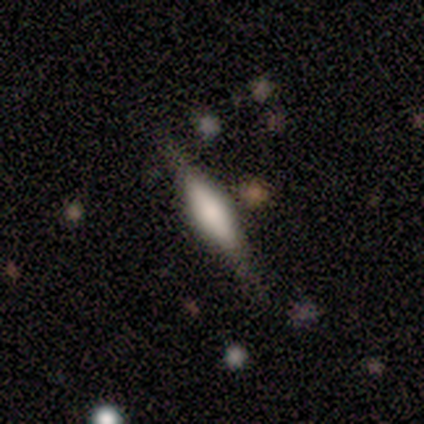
Smooth or featured: featured or disk — 60% (smooth — 40%)
Edge-on disk: yes — 100%
Edge-on bulge: rounded — 100%
Merging: none — 60% (minor disturbance — 20%)